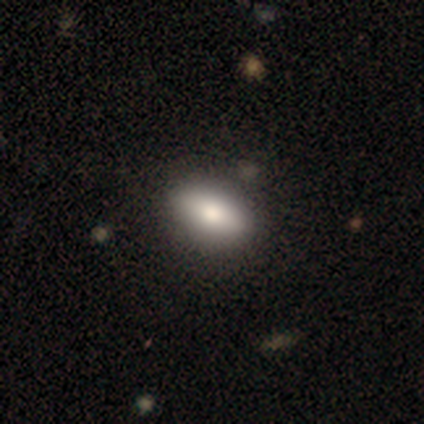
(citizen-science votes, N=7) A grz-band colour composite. It shows a smooth galaxy with no disk features (100%) that is in between round and cigar-shaped (100%). Merging: none (71%).